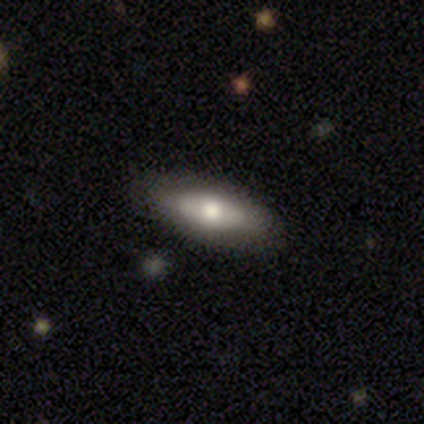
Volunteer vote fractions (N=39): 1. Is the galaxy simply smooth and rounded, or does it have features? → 56% smooth, 36% featured or disk, 8% star or artifact.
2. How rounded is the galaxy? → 68% in between, 27% cigar-shaped, 5% round.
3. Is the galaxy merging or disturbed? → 86% none, 11% minor disturbance, 3% major disturbance, 0% merger.